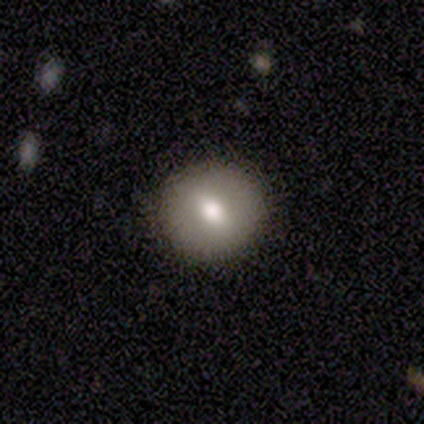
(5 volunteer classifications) A featured or disk galaxy (40%, tied with star or artifact) with a strong bar (50%, tied with no), no spiral arms (100%) and a moderate central bulge (50%, tied with small). Merging: none (100%).